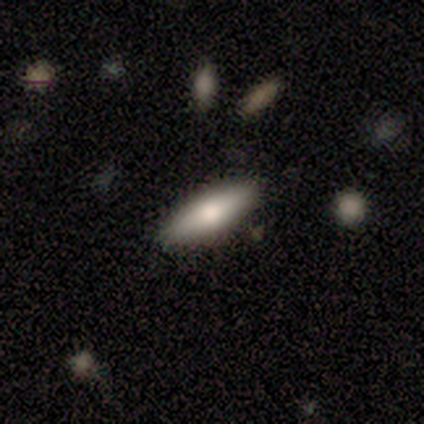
This is likely a smooth galaxy (67%). How rounded: possibly in between (50%, tied with cigar-shaped). Merging: clearly none (83%).